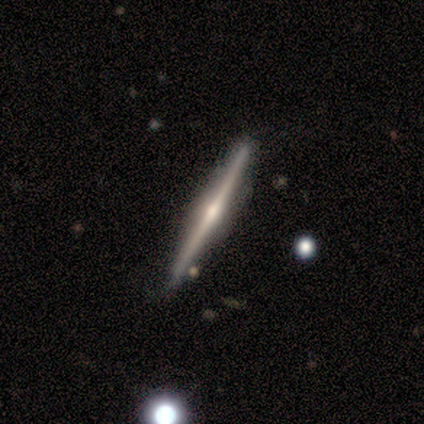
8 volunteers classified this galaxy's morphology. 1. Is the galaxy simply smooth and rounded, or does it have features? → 100% featured or disk, 0% smooth, 0% star or artifact.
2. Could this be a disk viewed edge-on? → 88% yes, 12% no.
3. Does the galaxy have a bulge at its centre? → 100% rounded, 0% boxy, 0% none.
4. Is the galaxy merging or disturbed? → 88% none, 12% minor disturbance, 0% major disturbance, 0% merger.